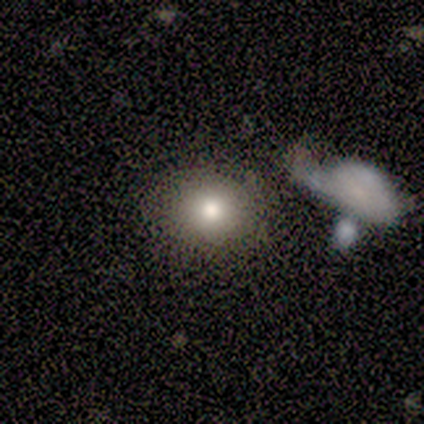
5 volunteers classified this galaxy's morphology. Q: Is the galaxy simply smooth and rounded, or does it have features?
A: smooth — 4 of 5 (80%).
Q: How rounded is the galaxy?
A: round — 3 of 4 (75%).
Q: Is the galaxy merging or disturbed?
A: none — 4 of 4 (100%).